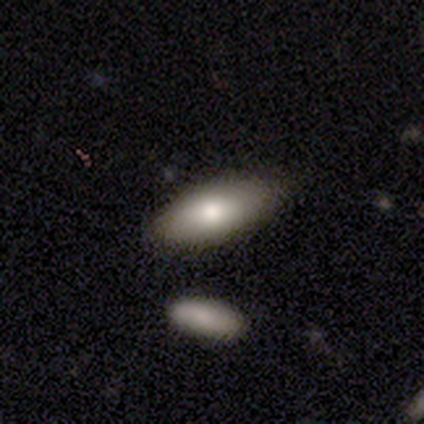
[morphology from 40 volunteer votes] smooth 80%, featured or disk 12%, star or artifact 8%. Down the decision tree: how rounded — in between (84%); merging — none (76%).